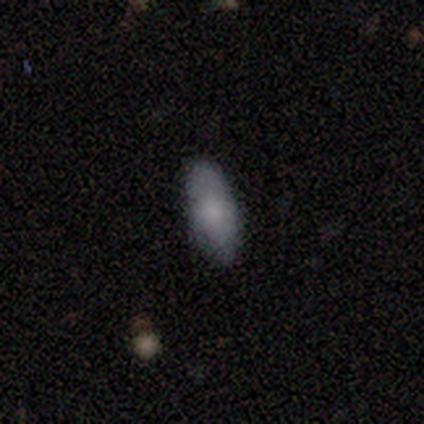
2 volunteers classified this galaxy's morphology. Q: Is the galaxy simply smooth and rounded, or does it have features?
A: smooth — 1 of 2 (50%, tied with star or artifact).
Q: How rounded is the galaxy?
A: in between — 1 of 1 (100%).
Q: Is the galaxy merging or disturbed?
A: none — 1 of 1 (100%).